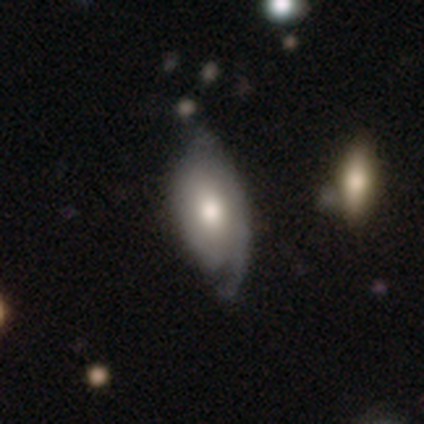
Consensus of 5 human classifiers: Morphology: type=smooth (60%); roundness=in between (67%); merging=none (40%, tied with minor disturbance).